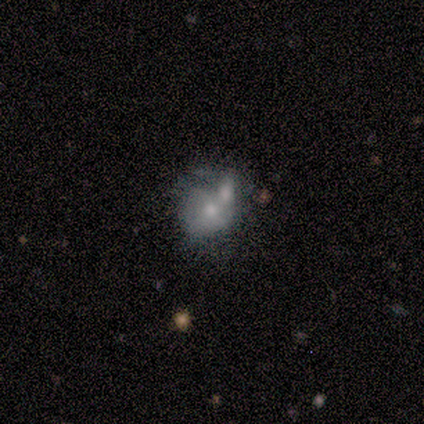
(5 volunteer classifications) smooth_or_featured: featured or disk (p=0.80) [alt: smooth p=0.20]
disk_edge_on: no (p=0.75) [alt: yes p=0.25]
bar: no (p=1.00)
has_spiral_arms: no (p=0.67) [alt: yes p=0.33]
bulge_size: small (p=0.67) [alt: moderate p=0.33]
merging: none (p=0.40) [tied with: merger p=0.40]